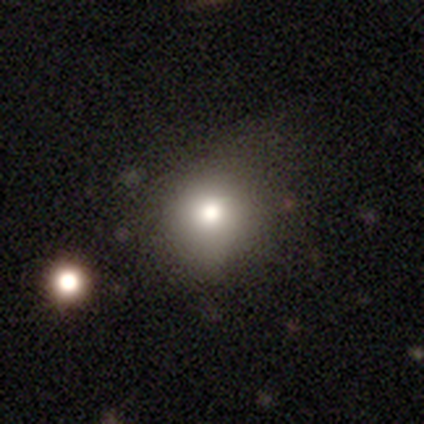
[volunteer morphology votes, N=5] smooth-or-featured: smooth: 80% | star or artifact: 20% | featured or disk: 0%
  how-rounded: round: 100% | in between: 0% | cigar-shaped: 0%
  merging: none: 50% | minor disturbance: 25% | merger: 25% | major disturbance: 0%